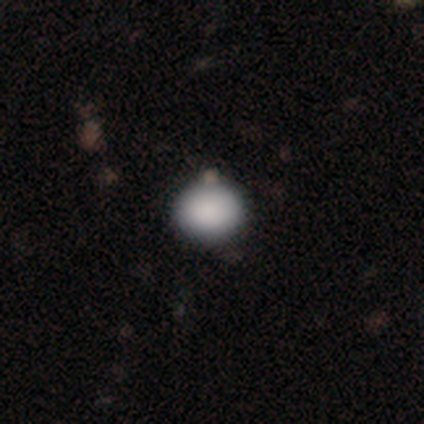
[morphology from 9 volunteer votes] Smooth or featured?
  - smooth: 100% *
  - featured or disk: 0%
  - star or artifact: 0%
How rounded?
  - round: 67% *
  - in between: 33%
  - cigar-shaped: 0%
Merging?
  - none: 100% *
  - minor disturbance: 0%
  - major disturbance: 0%
  - merger: 0%